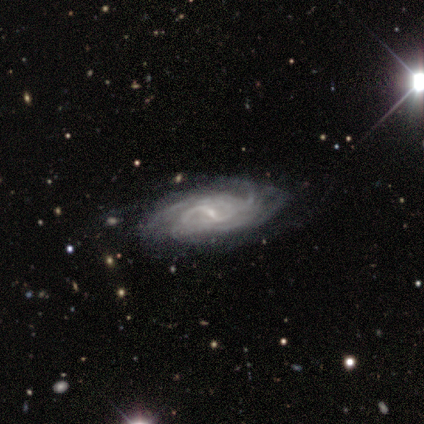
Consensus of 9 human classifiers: Q: Smooth or featured?
A: featured or disk (100%)
Q: Edge-on disk?
A: no (100%)
Q: Bar?
A: weak (44%); runner-up: strong (33%)
Q: Spiral arms?
A: yes (89%); runner-up: no (11%)
Q: Spiral winding?
A: tight (38%); tied with: medium (38%)
Q: Spiral arm count?
A: 4 (50%); runner-up: can't tell (38%)
Q: Bulge size?
A: small (78%); runner-up: moderate (11%)
Q: Merging?
A: none (67%); runner-up: minor disturbance (33%)